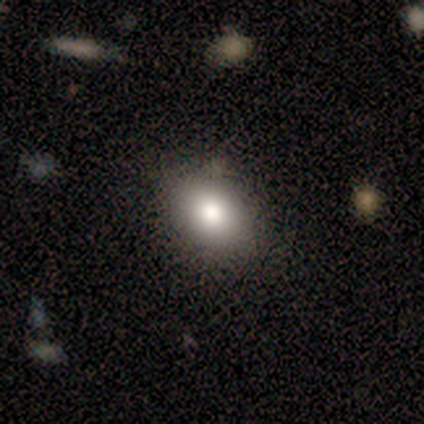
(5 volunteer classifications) Smooth or featured? smooth (60%)
How rounded? in between (100%)
Merging? none (60%)